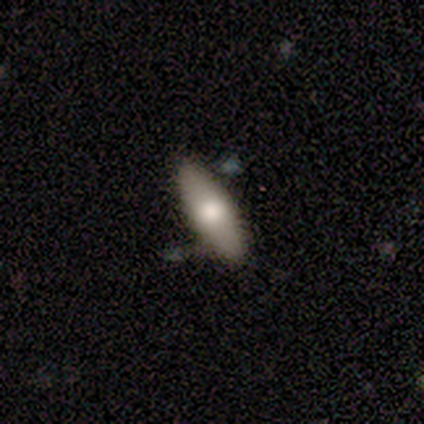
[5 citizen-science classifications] A smooth galaxy with no disk features (100%) that is in between round and cigar-shaped (80%). Merging: none (100%).